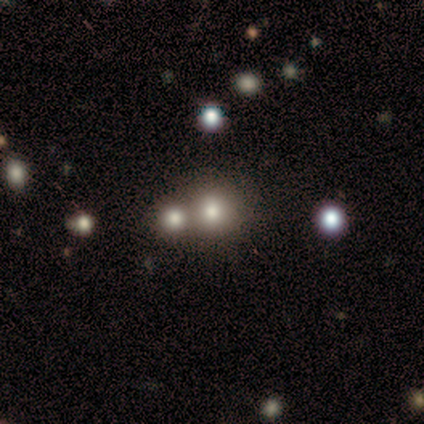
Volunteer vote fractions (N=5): Smooth or featured: smooth — 80% (featured or disk — 20%)
How rounded: round — 100%
Merging: none — 60% (merger — 40%)